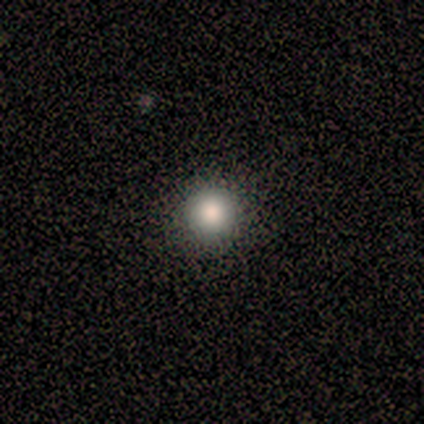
Smooth or featured? 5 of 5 (100%) said smooth. How rounded? 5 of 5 (100%) said round. Merging? 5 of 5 (100%) said none.